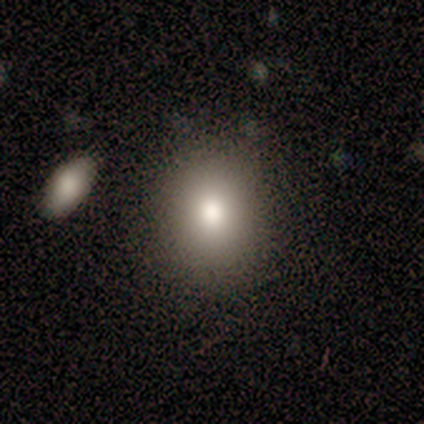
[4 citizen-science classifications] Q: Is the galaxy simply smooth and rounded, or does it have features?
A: smooth — 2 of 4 (50%, tied with featured or disk).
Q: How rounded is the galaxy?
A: round — 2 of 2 (100%).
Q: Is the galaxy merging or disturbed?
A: none — 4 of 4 (100%).